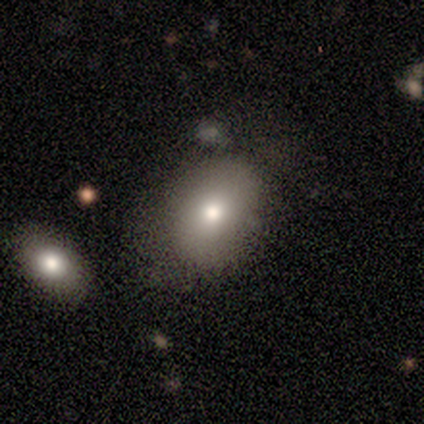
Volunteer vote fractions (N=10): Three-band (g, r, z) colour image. It shows a smooth galaxy with no disk features (60%) that is in between round and cigar-shaped (67%). Merging: none (44%).